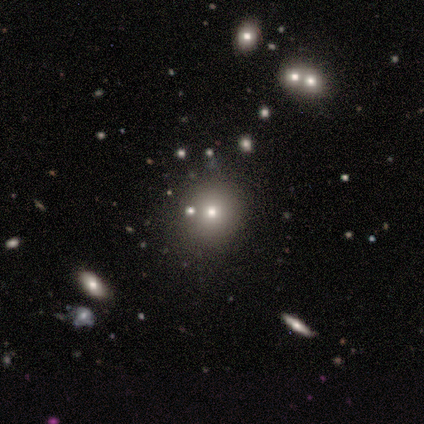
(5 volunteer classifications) A smooth galaxy with no disk features (60%) that is round (67%). Merging: none (67%).